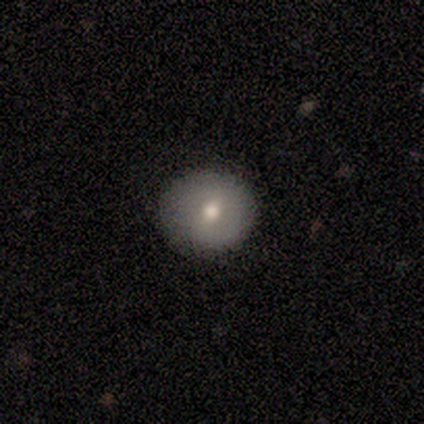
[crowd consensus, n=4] Smooth or featured?
  - smooth: 50% * (tied)
  - featured or disk: 50% * (tied)
  - star or artifact: 0%
How rounded?
  - round: 50% * (tied)
  - in between: 50% * (tied)
  - cigar-shaped: 0%
Merging?
  - none: 75% *
  - minor disturbance: 25%
  - major disturbance: 0%
  - merger: 0%